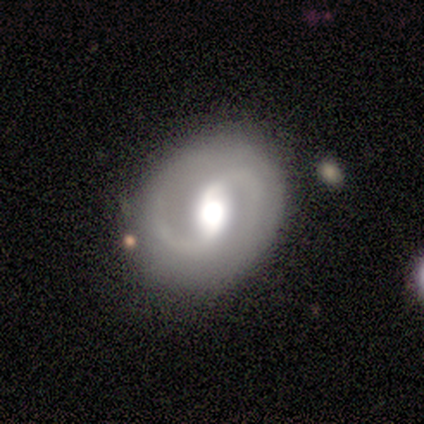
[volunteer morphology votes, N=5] A featured or disk galaxy (60%) with a strong bar (50%, tied with no), 2 (100%) medium (50%, tied with loose) spiral arms (100%) and a large central bulge (50%, tied with moderate).

Vote fractions:
- Smooth or featured? featured or disk: 60% / smooth: 20% / star or artifact: 20%
- Edge-on disk? no: 67% / yes: 33%
- Bar? strong: 50% (tied) / no: 50% (tied) / weak: 0%
- Spiral arms? yes: 100% / no: 0%
- Spiral winding? medium: 50% (tied) / loose: 50% (tied) / tight: 0%
- Spiral arm count? 2: 100% / 1: 0% / 3: 0% / 4: 0% / more than 4: 0% / can't tell: 0%
- Bulge size? large: 50% (tied) / moderate: 50% (tied) / dominant: 0% / small: 0% / none: 0%
- Merging? none: 100% / minor disturbance: 0% / major disturbance: 0% / merger: 0%